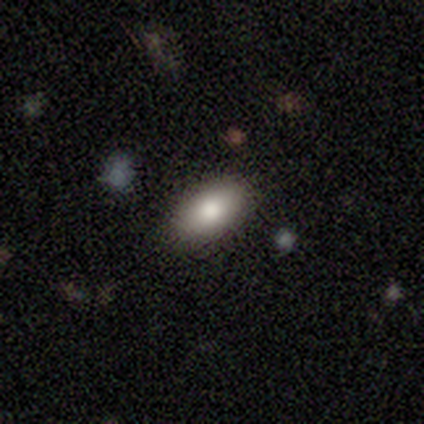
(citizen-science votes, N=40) Morphology: type=smooth (82%); roundness=in between (94%); merging=none (95%).